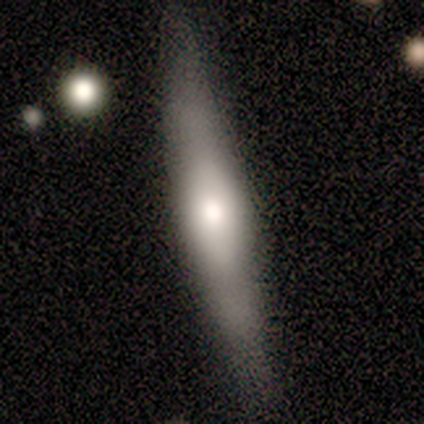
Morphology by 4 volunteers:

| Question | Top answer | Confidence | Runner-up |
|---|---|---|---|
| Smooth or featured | featured or disk | 75% | smooth (25%) |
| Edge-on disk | yes | 67% | no (33%) |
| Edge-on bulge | none | 50% | tied: rounded (50%) |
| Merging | none | 100% | — |